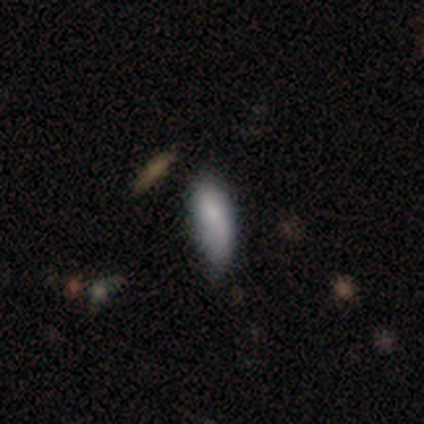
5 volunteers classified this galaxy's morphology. type=smooth (80%); roundness=in between (75%); merging=none (60%).